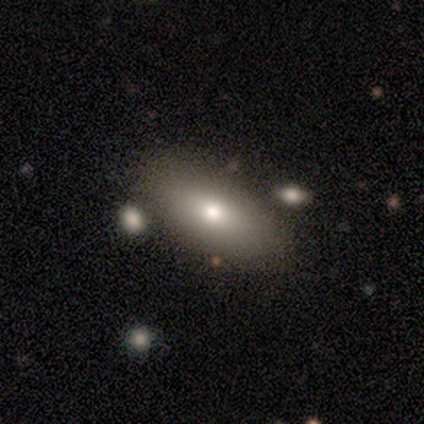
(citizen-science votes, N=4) Smooth or featured? smooth (50%)
How rounded? in between (100%)
Merging? none (100%)